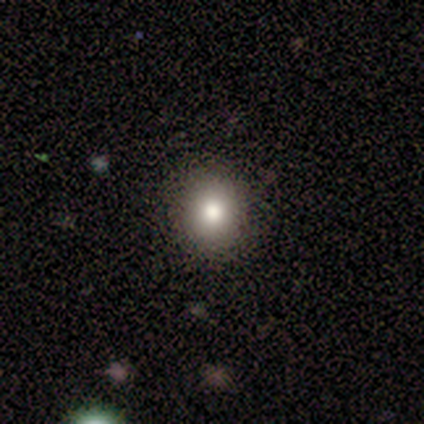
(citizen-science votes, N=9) smooth 89%, star or artifact 11%, featured or disk 0%. Down the decision tree: how rounded — round (100%); merging — none (88%).